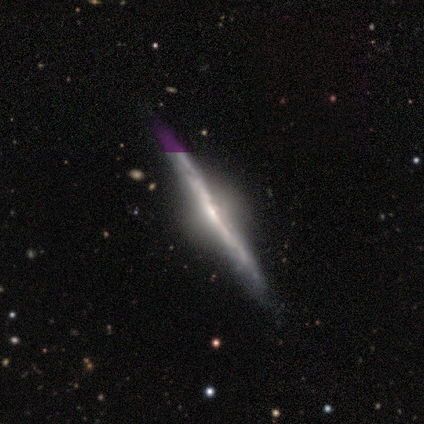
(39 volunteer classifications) Overall: featured or disk (90%). Edge-on disk: yes (97%). Edge-on bulge: rounded (76%). Merging: none (79%).